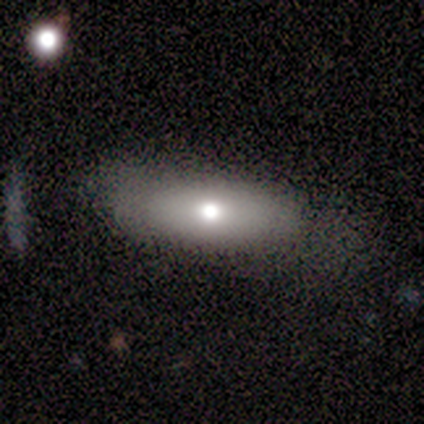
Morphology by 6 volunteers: This appears to be a smooth galaxy with no disk features (83%) that is in between round and cigar-shaped (100%). Merging: major disturbance (50%).